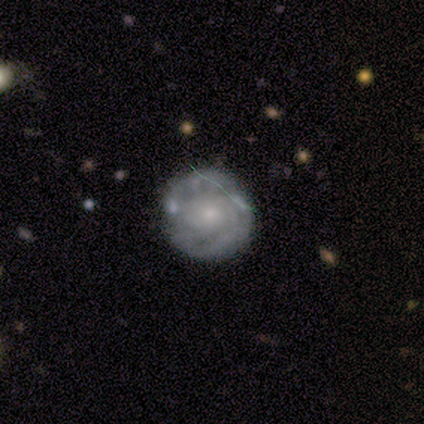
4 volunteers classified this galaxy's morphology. Volunteers were most divided on "spiral arm count" (2-way tie): 2: 50%, can't tell: 50%, 1: 0%, 3: 0%, 4: 0%, more than 4: 0%. More confident: edge-on disk — no (100%); spiral winding — tight (100%); bulge size — small (100%); smooth or featured — featured or disk (75%); bar — no (67%); spiral arms — yes (67%); merging — none (67%).